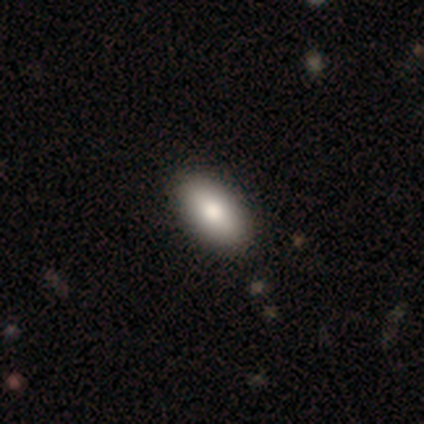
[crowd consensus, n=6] Consensus on every question: smooth or featured — smooth (100%); how rounded — in between (100%); merging — none (100%).